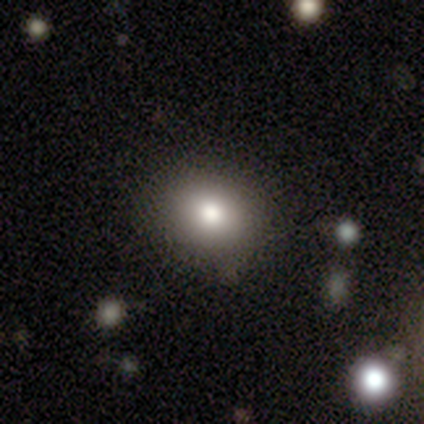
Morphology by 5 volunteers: This appears to be a smooth galaxy with no disk features (60%) that is round (100%). Merging: none (100%).